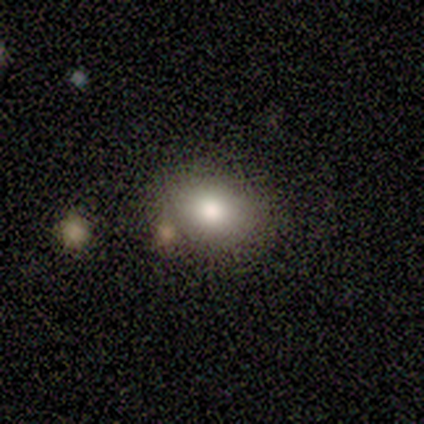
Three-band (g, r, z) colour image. It shows a smooth galaxy with no disk features (60%) that is in between round and cigar-shaped (100%). Merging: none (100%).